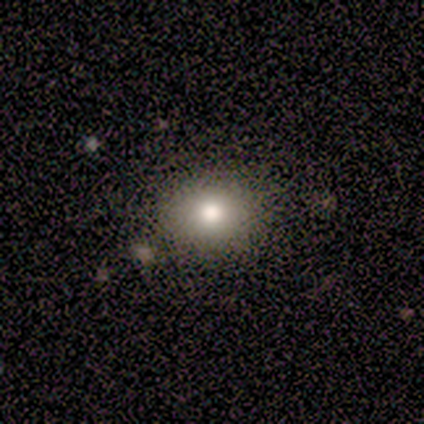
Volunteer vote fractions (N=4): Smooth or featured?
  - smooth: 100% *
  - featured or disk: 0%
  - star or artifact: 0%
How rounded?
  - round: 100% *
  - in between: 0%
  - cigar-shaped: 0%
Merging?
  - none: 75% *
  - minor disturbance: 25%
  - major disturbance: 0%
  - merger: 0%